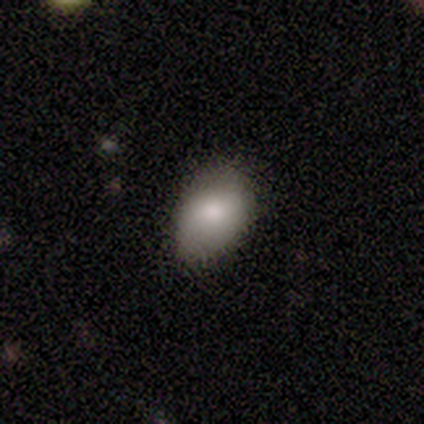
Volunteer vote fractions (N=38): Morphology: type=smooth (79%); roundness=in between (83%); merging=none (77%).